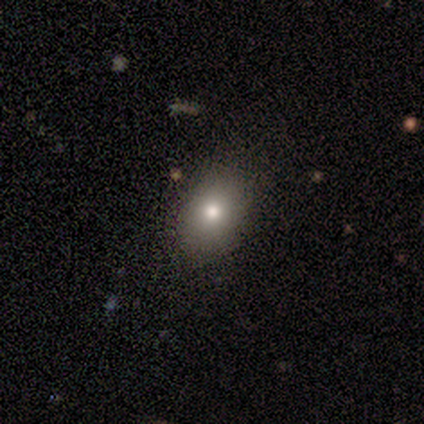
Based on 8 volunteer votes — smooth 75%, featured or disk 12%, star or artifact 12%. Down the decision tree: how rounded — in between (67%); merging — none (100%).